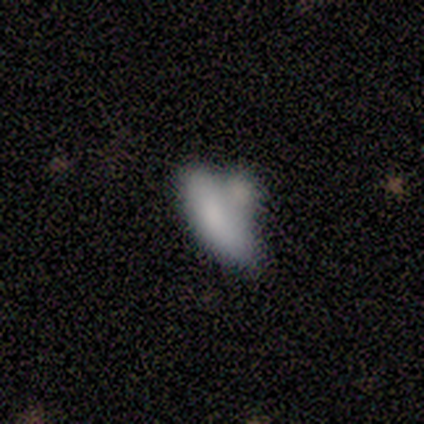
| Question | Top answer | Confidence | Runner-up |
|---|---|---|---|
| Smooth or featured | smooth | 89% | featured or disk (11%) |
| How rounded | cigar-shaped | 62% | in between (25%) |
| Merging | none | 33% | tied: merger (33%) |